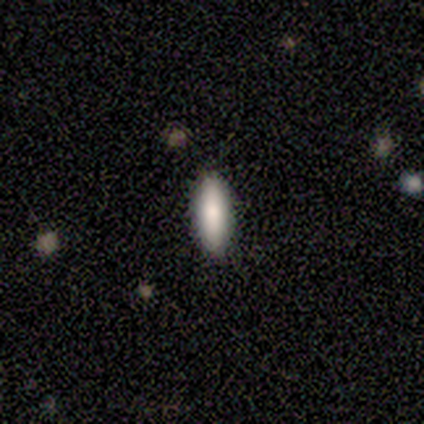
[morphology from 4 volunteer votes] Overall: smooth (100%). How rounded: cigar-shaped (100%). Merging: none (100%).